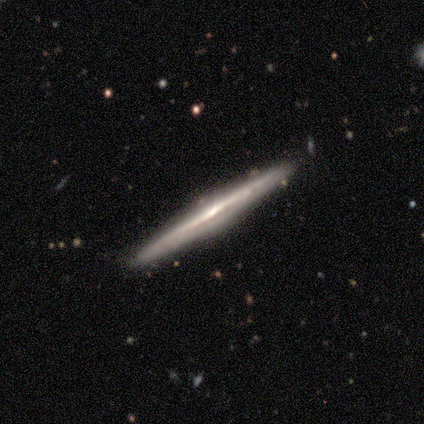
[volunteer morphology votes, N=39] Smooth or featured? featured or disk (90%)
Edge-on disk? yes (97%)
Edge-on bulge? none (44%, tied with rounded)
Merging? none (95%)